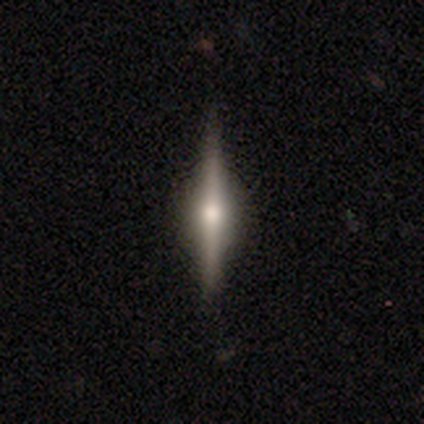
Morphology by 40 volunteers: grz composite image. It shows a featured or disk galaxy (68%) viewed edge-on (93%) with a rounded central bulge (80%). Merging: none (76%).